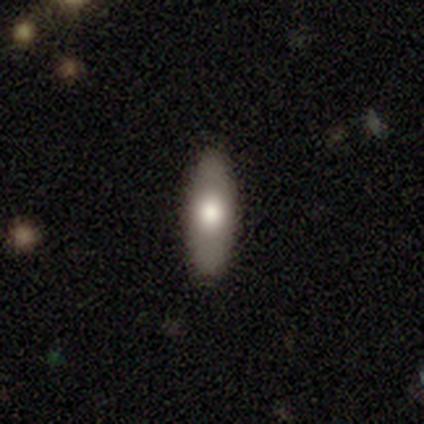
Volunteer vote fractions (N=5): Smooth or featured? smooth (100%)
How rounded? in between (80%)
Merging? none (80%)